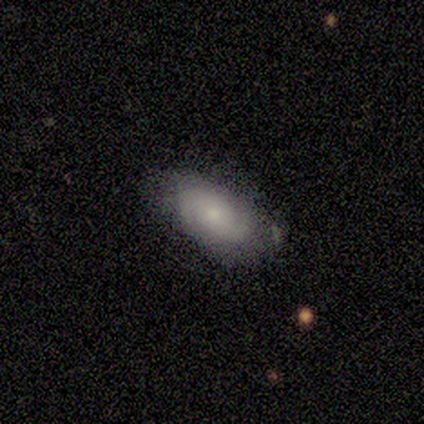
smooth-or-featured: featured or disk: 100% | smooth: 0% | star or artifact: 0%
  disk-edge-on: no: 100% | yes: 0%
    bar: no: 67% | weak: 33% | strong: 0%
    has-spiral-arms: yes: 100% | no: 0%
      spiral-winding: medium: 67% | tight: 33% | loose: 0%
      spiral-arm-count: 2: 100% | 1: 0% | 3: 0% | 4: 0% | more than 4: 0% | can't tell: 0%
    bulge-size: small: 67% | large: 17% | moderate: 17% | dominant: 0% | none: 0%
  merging: none: 50% (tied) | minor disturbance: 50% (tied) | major disturbance: 0% | merger: 0%